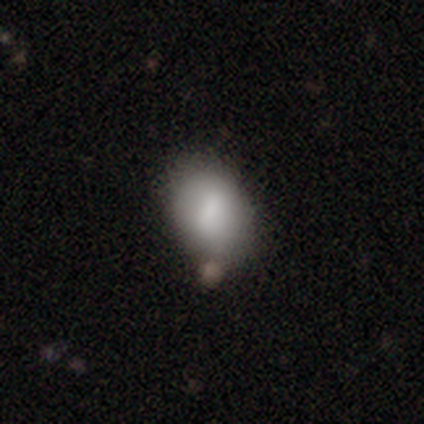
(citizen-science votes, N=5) Smooth or featured? smooth (60%)
How rounded? in between (67%)
Merging? none (75%)